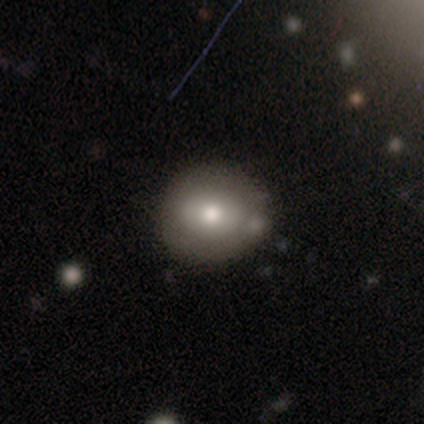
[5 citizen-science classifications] Q: Smooth or featured?
A: smooth (40%); tied with: featured or disk (40%)
Q: How rounded?
A: round (50%); tied with: in between (50%)
Q: Merging?
A: none (100%)